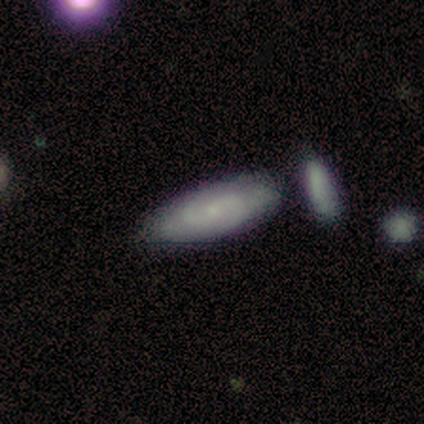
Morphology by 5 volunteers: This appears to be a featured or disk galaxy (80%) with a weak bar (50%, tied with no), 2 (33%, tied with 3 and can't tell) tight (67%) spiral arms (75%) and a small central bulge (75%). Merging: none (80%).